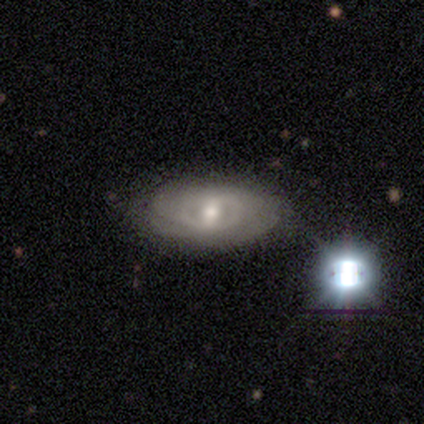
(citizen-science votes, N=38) Smooth or featured? featured or disk (76%)
Edge-on disk? no (97%)
Bar? weak (43%)
Spiral arms? yes (71%)
Spiral winding? tight (65%)
Spiral arm count? can't tell (65%)
Bulge size? moderate (64%)
Merging? none (50%)